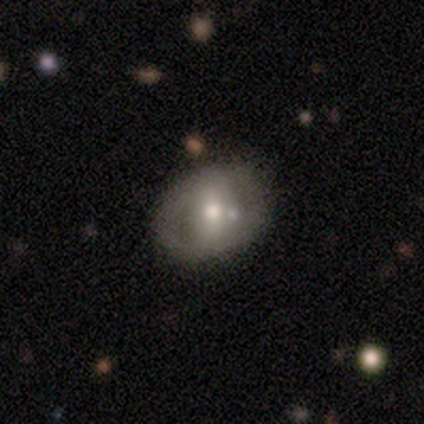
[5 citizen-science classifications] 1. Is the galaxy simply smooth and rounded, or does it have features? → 80% featured or disk, 20% smooth, 0% star or artifact.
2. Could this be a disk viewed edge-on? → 100% no, 0% yes.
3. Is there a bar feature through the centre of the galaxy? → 50% weak, 25% strong, 25% no.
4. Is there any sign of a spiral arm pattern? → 75% no, 25% yes.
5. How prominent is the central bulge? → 75% small, 25% moderate, 0% dominant, 0% large, 0% none.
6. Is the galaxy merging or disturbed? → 80% none, 20% merger, 0% minor disturbance, 0% major disturbance.